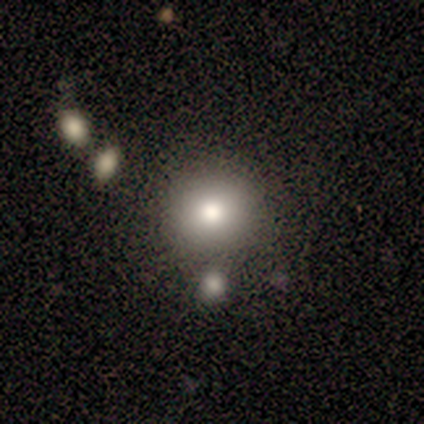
Volunteers were most divided on "smooth or featured": smooth: 72%, star or artifact: 15%, featured or disk: 13%. More confident: how rounded — round (89%); merging — none (82%).